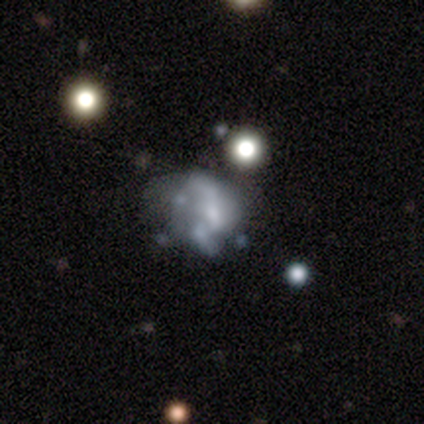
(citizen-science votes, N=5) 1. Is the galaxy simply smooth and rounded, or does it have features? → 60% featured or disk, 20% smooth, 20% star or artifact.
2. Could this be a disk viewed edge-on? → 100% no, 0% yes.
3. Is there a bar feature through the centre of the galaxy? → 100% no, 0% strong, 0% weak.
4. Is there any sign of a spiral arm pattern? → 100% no, 0% yes.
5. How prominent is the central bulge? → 33% moderate (tied), 33% small (tied), 33% none (tied), 0% dominant, 0% large.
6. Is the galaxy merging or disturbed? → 50% major disturbance, 25% none, 25% merger, 0% minor disturbance.